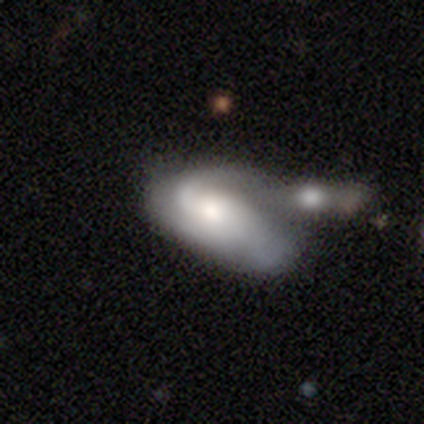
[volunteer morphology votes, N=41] Smooth or featured?
  - featured or disk: 54% *
  - smooth: 44%
  - star or artifact: 2%
Edge-on disk?
  - no: 100% *
  - yes: 0%
Bar?
  - weak: 45% * (tied)
  - no: 45% * (tied)
  - strong: 9%
Spiral arms?
  - yes: 82% *
  - no: 18%
Spiral winding?
  - loose: 67% *
  - tight: 17%
  - medium: 17%
Spiral arm count?
  - 2: 50% *
  - can't tell: 33%
  - 1: 17%
  - 3: 0%
  - 4: 0%
  - more than 4: 0%
Bulge size?
  - small: 32% *
  - large: 27%
  - moderate: 27%
  - none: 9%
  - dominant: 5%
Merging?
  - merger: 65% *
  - major disturbance: 18%
  - minor disturbance: 10%
  - none: 8%